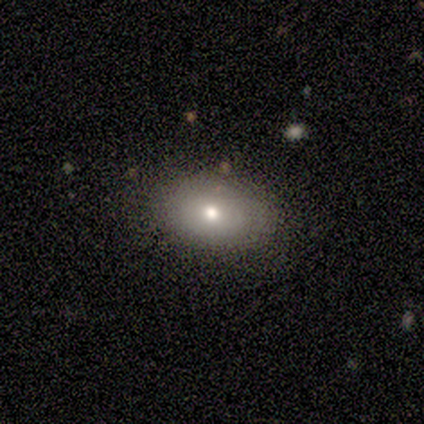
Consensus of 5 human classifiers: Overall: smooth (80%). How rounded: in between (100%). Merging: none (100%).